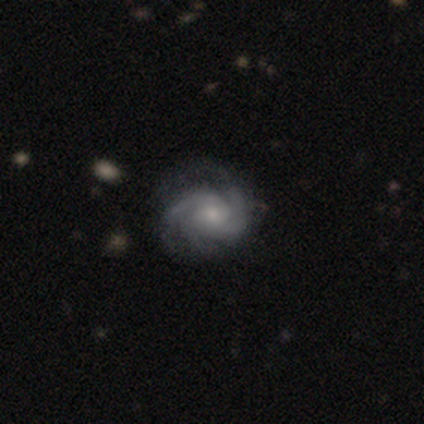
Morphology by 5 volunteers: Smooth or featured? featured or disk (80%)
Edge-on disk? no (100%)
Bar? no (100%)
Spiral arms? yes (100%)
Spiral winding? tight (50%, tied with medium)
Spiral arm count? 3 (100%)
Bulge size? moderate (50%, tied with small)
Merging? none (60%)